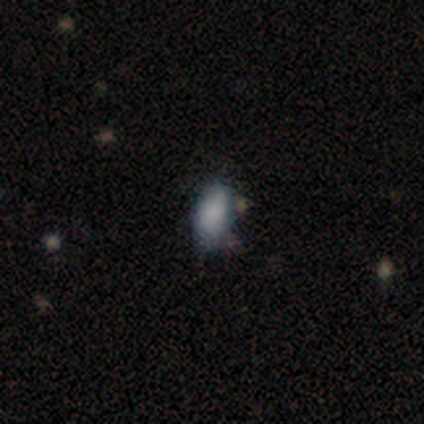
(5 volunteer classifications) This is clearly a smooth galaxy (100%). How rounded: clearly in between (100%). Merging: likely none (60%).